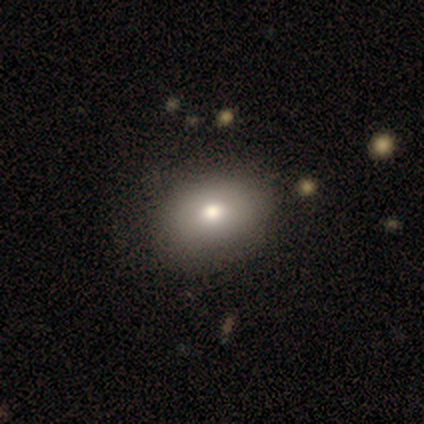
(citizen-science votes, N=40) smooth-or-featured: smooth: 60% | featured or disk: 22% | star or artifact: 18%
  how-rounded: in between: 79% | round: 17% | cigar-shaped: 4%
  merging: none: 73% | minor disturbance: 12% | merger: 3% | major disturbance: 0%